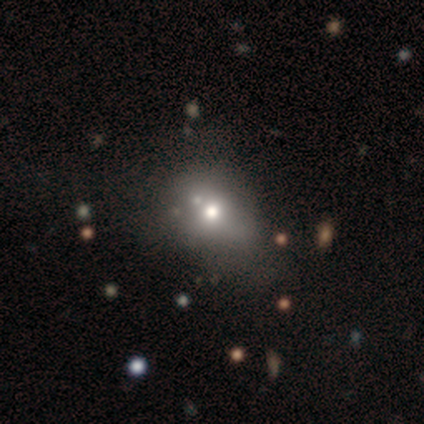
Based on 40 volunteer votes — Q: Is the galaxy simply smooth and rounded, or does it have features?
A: smooth — 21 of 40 (52%).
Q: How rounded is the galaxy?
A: round — 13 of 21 (62%).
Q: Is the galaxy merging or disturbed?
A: none — 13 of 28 (46%).